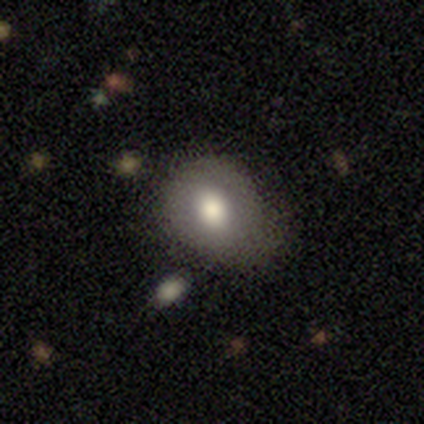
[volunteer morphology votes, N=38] smooth-or-featured: smooth: 63% | featured or disk: 29% | star or artifact: 8%
  how-rounded: in between: 58% | round: 38% | cigar-shaped: 4%
  merging: none: 43% | minor disturbance: 40% | major disturbance: 14% | merger: 3%